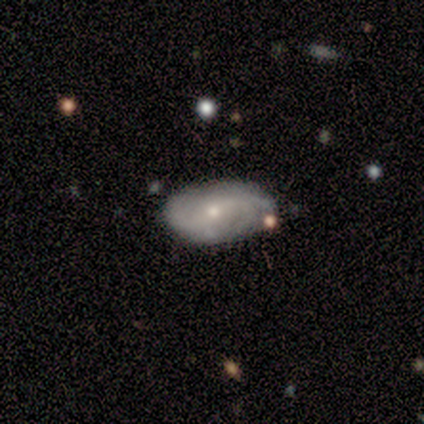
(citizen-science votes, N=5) Volunteers were most divided on "smooth or featured": smooth: 60%, featured or disk: 40%, star or artifact: 0%. More confident: how rounded — in between (100%); merging — none (60%).